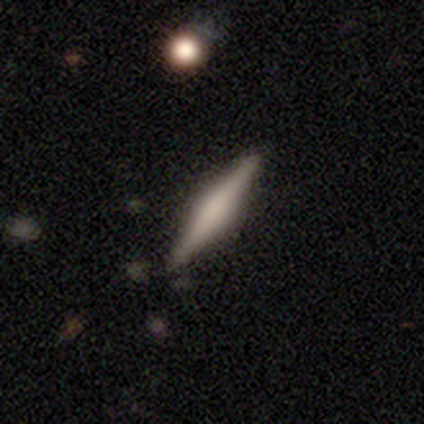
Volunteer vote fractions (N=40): A featured or disk galaxy (60%) viewed edge-on (100%) with a rounded central bulge (50%).

Vote fractions:
- Smooth or featured? featured or disk: 60% / smooth: 35% / star or artifact: 5%
- Edge-on disk? yes: 100% / no: 0%
- Edge-on bulge? rounded: 50% / boxy: 46% / none: 4%
- Merging? none: 89% / minor disturbance: 11% / major disturbance: 0% / merger: 0%